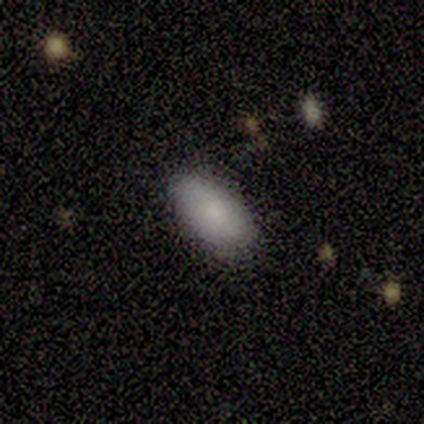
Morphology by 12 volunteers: smooth-or-featured: smooth: 100% | featured or disk: 0% | star or artifact: 0%
  how-rounded: in between: 100% | round: 0% | cigar-shaped: 0%
  merging: none: 75% | minor disturbance: 25% | major disturbance: 0% | merger: 0%